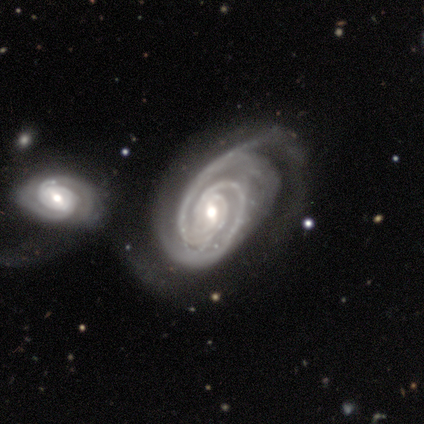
Smooth or featured? featured or disk (75%)
Edge-on disk? no (100%)
Bar? weak (67%)
Spiral arms? yes (100%)
Spiral winding? tight (67%)
Spiral arm count? 2 (67%)
Bulge size? small (67%)
Merging? minor disturbance (50%, tied with merger)